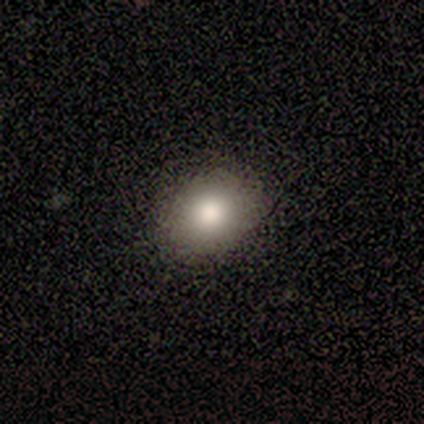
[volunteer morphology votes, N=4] Smooth or featured? 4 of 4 (100%) said smooth. How rounded? 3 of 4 (75%) said in between. Merging? 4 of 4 (100%) said none.